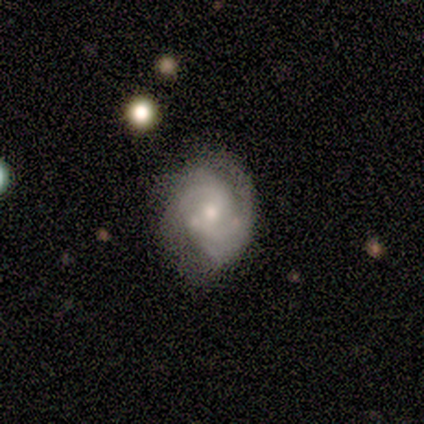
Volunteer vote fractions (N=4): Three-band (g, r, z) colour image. It shows a featured or disk galaxy (50%) with a strong bar (50%, tied with weak), 2 (100%) tight (50%, tied with medium) spiral arms (100%) and a small central bulge (100%). Merging: none (33%, tied with minor disturbance and major disturbance).